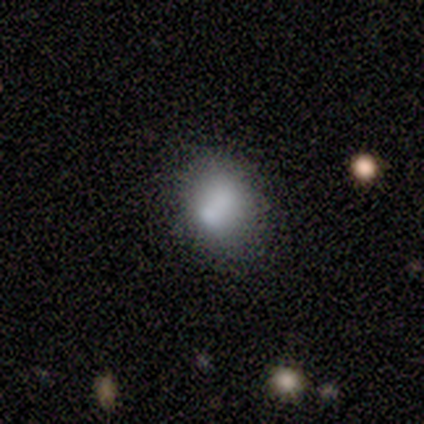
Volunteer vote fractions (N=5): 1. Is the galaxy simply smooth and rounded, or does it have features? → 80% smooth, 20% featured or disk, 0% star or artifact.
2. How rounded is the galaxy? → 75% in between, 25% round, 0% cigar-shaped.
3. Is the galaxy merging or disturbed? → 40% none (tied), 40% merger (tied), 20% minor disturbance, 0% major disturbance.